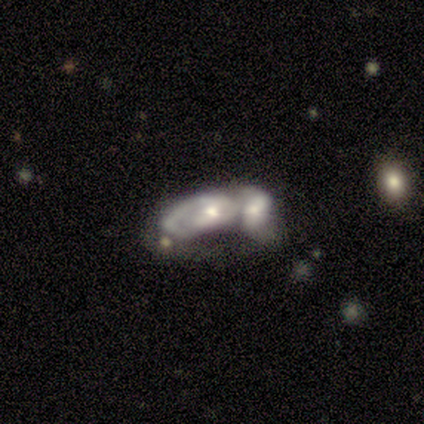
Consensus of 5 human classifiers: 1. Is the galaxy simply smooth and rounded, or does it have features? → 80% featured or disk, 20% smooth, 0% star or artifact.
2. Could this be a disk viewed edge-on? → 100% no, 0% yes.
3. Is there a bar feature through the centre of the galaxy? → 100% no, 0% strong, 0% weak.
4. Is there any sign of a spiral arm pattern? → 75% yes, 25% no.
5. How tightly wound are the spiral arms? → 67% tight, 33% medium, 0% loose.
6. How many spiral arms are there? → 67% 2, 33% 1, 0% 3, 0% 4, 0% more than 4, 0% can't tell.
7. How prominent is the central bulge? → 75% small, 25% moderate, 0% dominant, 0% large, 0% none.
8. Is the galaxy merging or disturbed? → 60% merger, 20% none, 20% major disturbance, 0% minor disturbance.